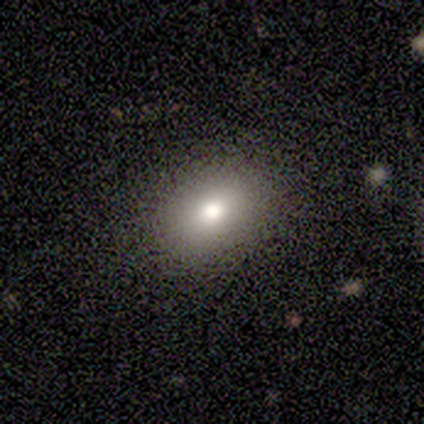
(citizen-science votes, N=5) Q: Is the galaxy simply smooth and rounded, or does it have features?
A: smooth — 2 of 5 (40%, tied with featured or disk).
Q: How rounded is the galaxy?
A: in between — 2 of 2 (100%).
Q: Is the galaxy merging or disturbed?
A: none — 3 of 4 (75%).